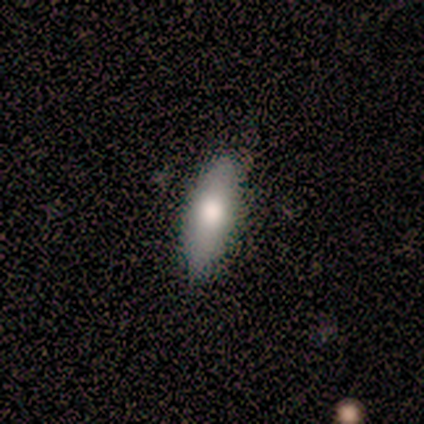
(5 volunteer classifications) A smooth galaxy with no disk features (80%) that is in between round and cigar-shaped (75%).

Vote fractions:
- Smooth or featured? smooth: 80% / featured or disk: 20% / star or artifact: 0%
- How rounded? in between: 75% / cigar-shaped: 25% / round: 0%
- Merging? none: 80% / minor disturbance: 20% / major disturbance: 0% / merger: 0%